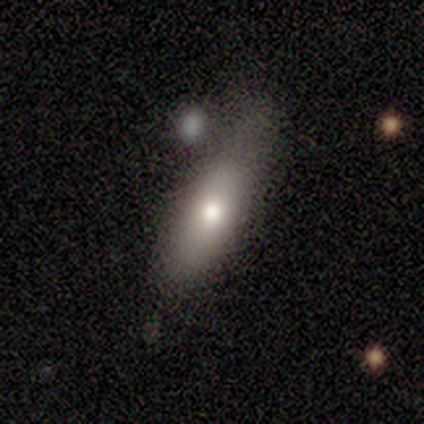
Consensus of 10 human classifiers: A smooth galaxy with no disk features (70%) that is in between round and cigar-shaped (57%). Merging: none (70%).